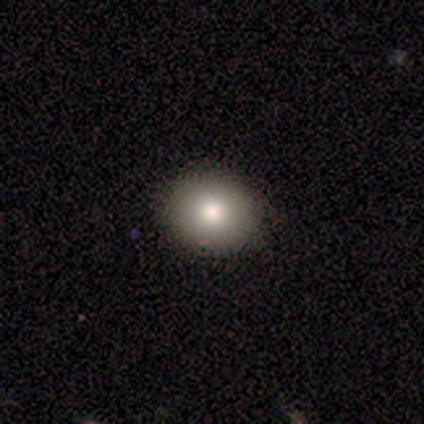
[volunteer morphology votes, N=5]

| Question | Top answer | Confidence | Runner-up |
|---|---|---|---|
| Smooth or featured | smooth | 60% | featured or disk (20%) |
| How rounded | round | 100% | — |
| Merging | none | 100% | — |